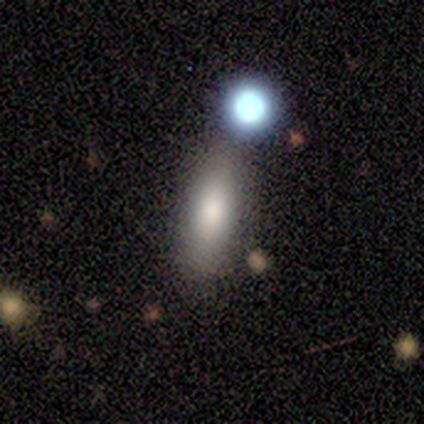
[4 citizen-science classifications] Morphology: type=smooth (100%); roundness=cigar-shaped (75%); merging=none (75%).